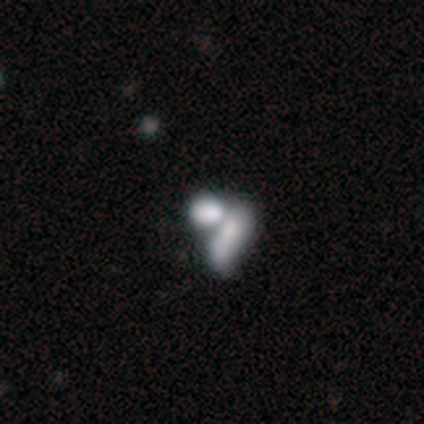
This appears to be a smooth galaxy with no disk features (56%) that is in between round and cigar-shaped (50%). Merging: merger (70%).